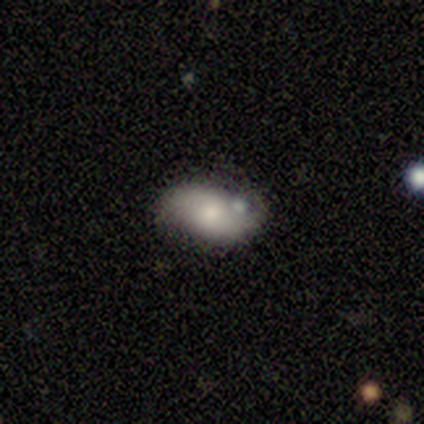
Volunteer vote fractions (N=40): smooth_or_featured: smooth (p=0.50) [alt: featured or disk p=0.47]
how_rounded: in between (p=0.90) [alt: round p=0.10]
merging: none (p=0.67) [alt: merger p=0.18]